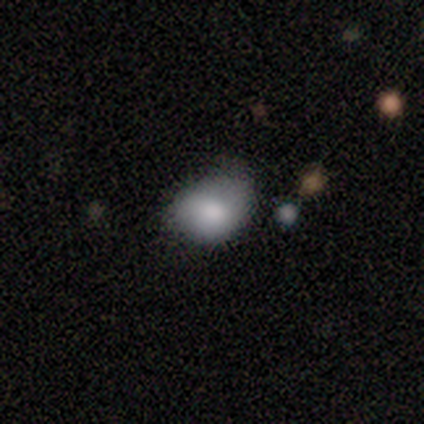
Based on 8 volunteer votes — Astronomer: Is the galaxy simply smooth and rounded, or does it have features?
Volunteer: smooth — 88%.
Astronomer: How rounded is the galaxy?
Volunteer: in between — 86%.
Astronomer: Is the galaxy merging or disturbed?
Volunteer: minor disturbance — 71%.